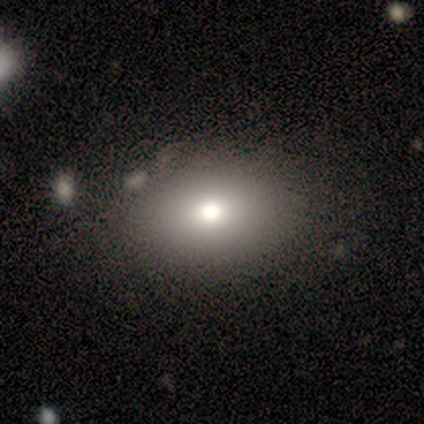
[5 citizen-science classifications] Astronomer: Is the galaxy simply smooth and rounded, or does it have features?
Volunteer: smooth — 80%.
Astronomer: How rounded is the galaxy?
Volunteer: in between — 75%.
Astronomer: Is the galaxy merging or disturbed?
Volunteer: none — 100%.